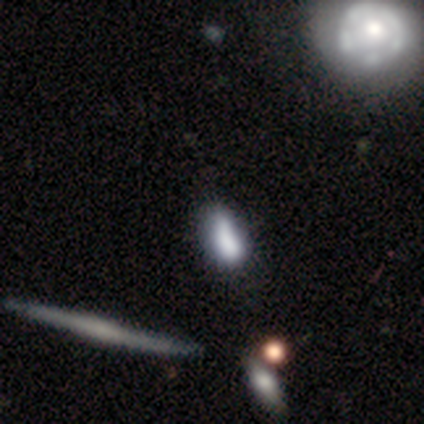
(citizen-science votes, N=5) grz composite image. It shows a smooth galaxy with no disk features (60%) that is in between round and cigar-shaped (100%). Merging: none (67%).